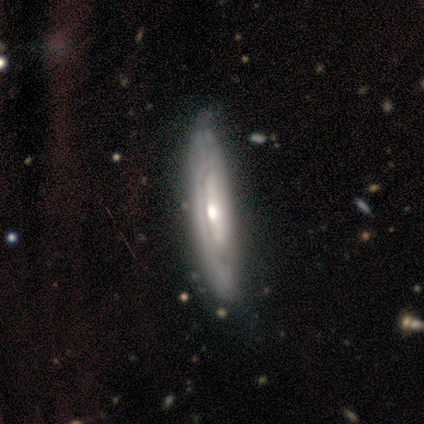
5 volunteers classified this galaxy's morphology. A featured or disk galaxy (80%) viewed edge-on (50%, tied with no) with no central bulge (50%, tied with rounded).

Vote fractions:
- Smooth or featured? featured or disk: 80% / smooth: 20% / star or artifact: 0%
- Edge-on disk? yes: 50% (tied) / no: 50% (tied)
- Edge-on bulge? none: 50% (tied) / rounded: 50% (tied) / boxy: 0%
- Merging? none: 60% / minor disturbance: 20% / merger: 20% / major disturbance: 0%